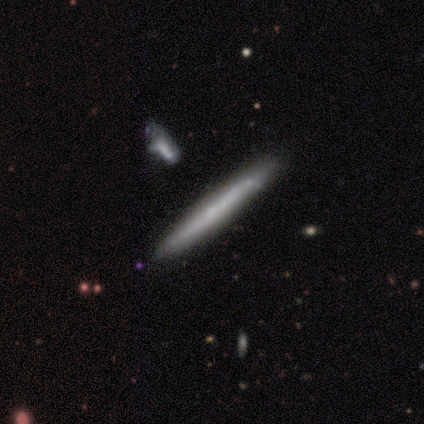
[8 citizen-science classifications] This is likely a smooth galaxy (62%). How rounded: clearly cigar-shaped (100%). Merging: marginally none (43%, tied with minor disturbance).